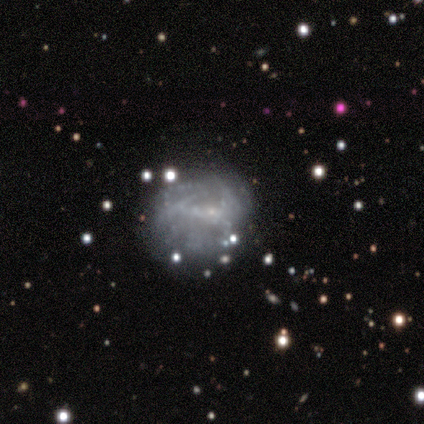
A smooth galaxy with no disk features (50%) that is round (100%). Merging: none (40%, tied with merger).